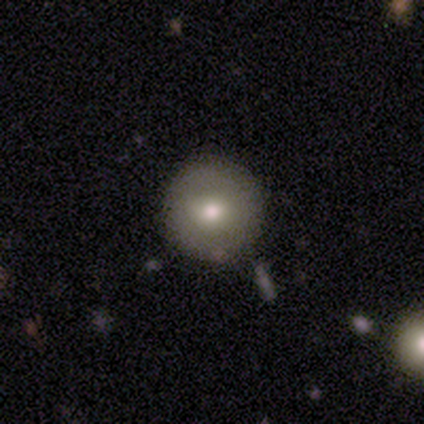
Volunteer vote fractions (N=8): A featured or disk galaxy (62%) with no bar (100%), no spiral arms (100%) and a moderate central bulge (60%). Merging: none (100%).